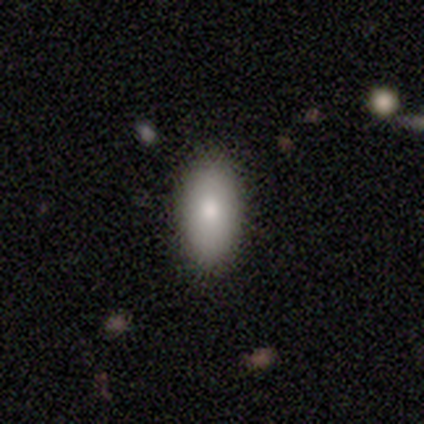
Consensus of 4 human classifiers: smooth-or-featured: smooth: 100% | featured or disk: 0% | star or artifact: 0%
  how-rounded: in between: 100% | round: 0% | cigar-shaped: 0%
  merging: none: 100% | minor disturbance: 0% | major disturbance: 0% | merger: 0%